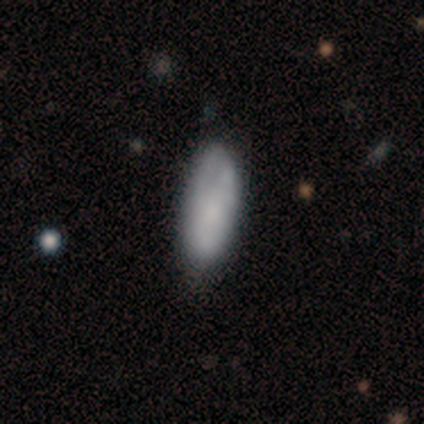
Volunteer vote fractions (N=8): smooth_or_featured: smooth (p=0.75) [alt: featured or disk p=0.25]
how_rounded: in between (p=1.00)
merging: none (p=0.75) [alt: minor disturbance p=0.12]